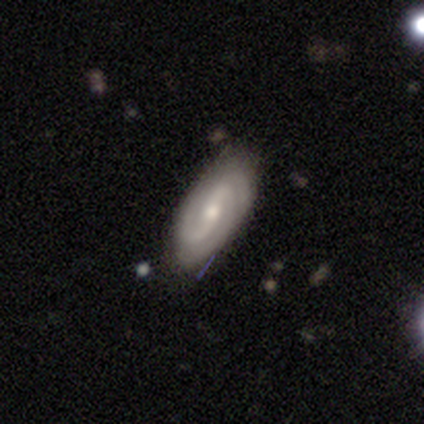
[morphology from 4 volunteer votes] smooth-or-featured: featured or disk: 75% | smooth: 25% | star or artifact: 0%
  disk-edge-on: no: 67% | yes: 33%
    bar: strong: 50% (tied) | no: 50% (tied) | weak: 0%
    has-spiral-arms: yes: 100% | no: 0%
      spiral-winding: tight: 50% (tied) | medium: 50% (tied) | loose: 0%
      spiral-arm-count: 2: 100% | 1: 0% | 3: 0% | 4: 0% | more than 4: 0% | can't tell: 0%
    bulge-size: moderate: 50% (tied) | small: 50% (tied) | dominant: 0% | large: 0% | none: 0%
  merging: none: 100% | minor disturbance: 0% | major disturbance: 0% | merger: 0%